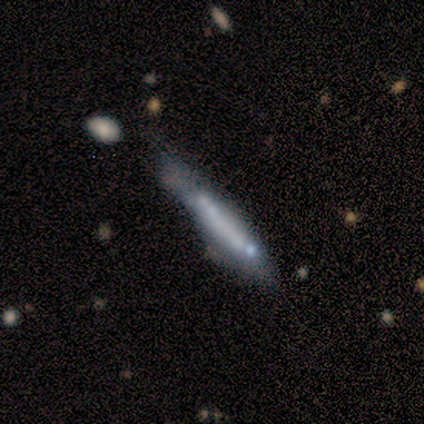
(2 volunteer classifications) Smooth or featured? 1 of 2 (50%, tied with featured or disk) said smooth. How rounded? 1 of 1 (100%) said cigar-shaped. Merging? 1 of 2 (50%, tied with merger) said minor disturbance.